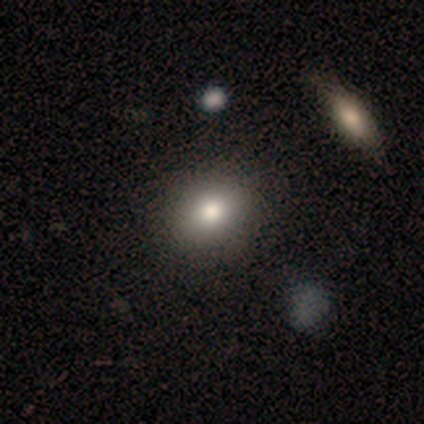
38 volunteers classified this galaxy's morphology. smooth-or-featured: smooth: 76% | featured or disk: 16% | star or artifact: 8%
  how-rounded: round: 59% | in between: 38% | cigar-shaped: 3%
  merging: none: 60% | minor disturbance: 6% | merger: 6% | major disturbance: 0%